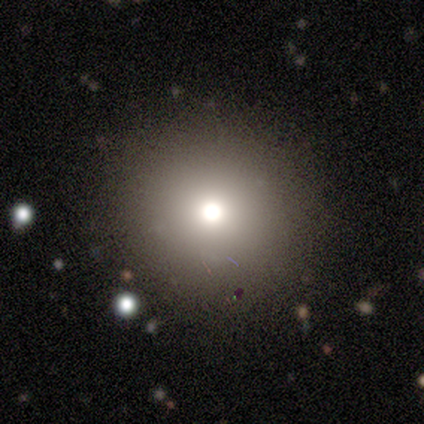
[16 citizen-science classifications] Q: Smooth or featured?
A: smooth (88%); runner-up: star or artifact (12%)
Q: How rounded?
A: round (100%)
Q: Merging?
A: none (100%)